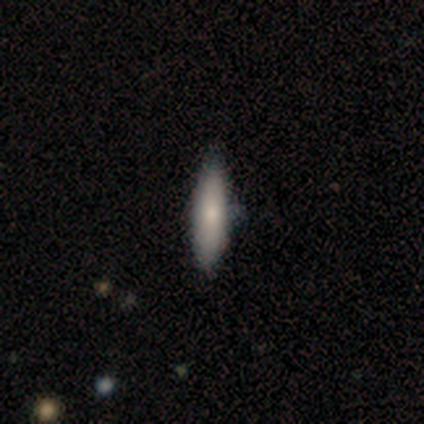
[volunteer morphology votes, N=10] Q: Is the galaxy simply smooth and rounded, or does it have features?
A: smooth — 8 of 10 (80%).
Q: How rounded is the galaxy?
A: cigar-shaped — 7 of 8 (88%).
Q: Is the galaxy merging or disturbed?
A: none — 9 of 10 (90%).